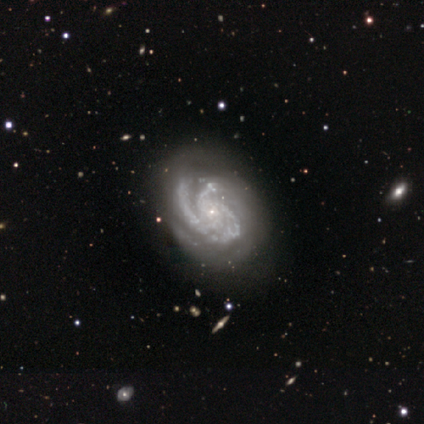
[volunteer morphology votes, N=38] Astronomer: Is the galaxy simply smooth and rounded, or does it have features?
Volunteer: featured or disk — 95%.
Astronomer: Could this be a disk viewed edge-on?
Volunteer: no — 100%.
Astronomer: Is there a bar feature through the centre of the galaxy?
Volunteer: no — 92%.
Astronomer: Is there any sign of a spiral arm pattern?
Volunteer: yes — 100%.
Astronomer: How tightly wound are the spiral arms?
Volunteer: tight — 56% (runner-up: medium, 42%).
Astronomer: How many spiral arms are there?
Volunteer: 3 — 69%.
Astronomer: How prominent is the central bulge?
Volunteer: small — 81%.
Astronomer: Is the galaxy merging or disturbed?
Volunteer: none — 55%.